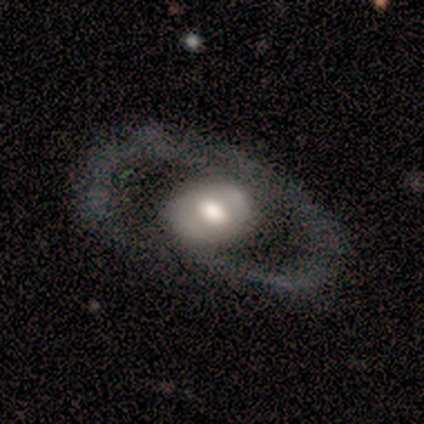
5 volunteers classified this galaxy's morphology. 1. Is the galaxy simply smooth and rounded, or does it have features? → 80% featured or disk, 20% smooth, 0% star or artifact.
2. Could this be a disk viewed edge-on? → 100% no, 0% yes.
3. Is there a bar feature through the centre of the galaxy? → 100% no, 0% strong, 0% weak.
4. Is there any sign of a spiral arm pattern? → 100% no, 0% yes.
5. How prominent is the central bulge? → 50% moderate (tied), 50% small (tied), 0% dominant, 0% large, 0% none.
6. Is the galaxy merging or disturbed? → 60% none, 40% minor disturbance, 0% major disturbance, 0% merger.